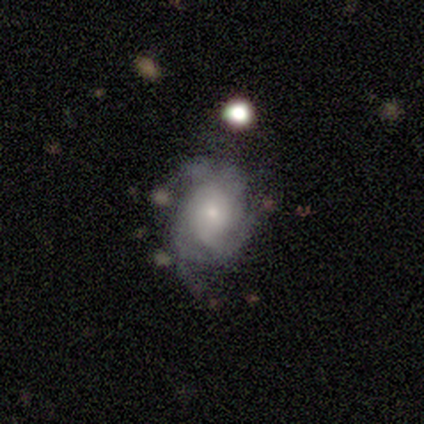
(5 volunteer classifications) smooth-or-featured: featured or disk: 80% | smooth: 20% | star or artifact: 0%
  disk-edge-on: no: 75% | yes: 25%
    bar: no: 100% | strong: 0% | weak: 0%
    has-spiral-arms: yes: 100% | no: 0%
      spiral-winding: tight: 100% | medium: 0% | loose: 0%
      spiral-arm-count: can't tell: 67% | 2: 33% | 1: 0% | 3: 0% | 4: 0% | more than 4: 0%
    bulge-size: small: 67% | moderate: 33% | dominant: 0% | large: 0% | none: 0%
  merging: minor disturbance: 60% | none: 40% | major disturbance: 0% | merger: 0%